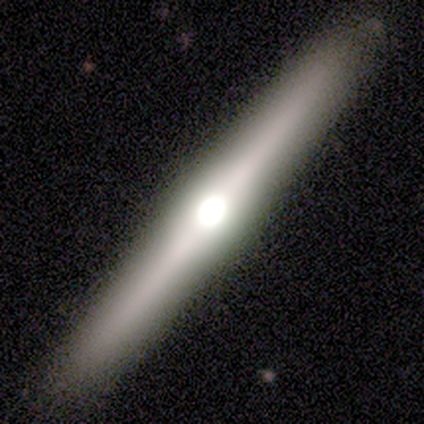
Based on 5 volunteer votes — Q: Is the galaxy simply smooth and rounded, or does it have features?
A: featured or disk — 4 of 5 (80%).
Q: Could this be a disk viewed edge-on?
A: yes — 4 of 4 (100%).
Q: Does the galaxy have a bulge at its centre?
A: rounded — 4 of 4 (100%).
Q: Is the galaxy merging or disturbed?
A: none — 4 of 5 (80%).